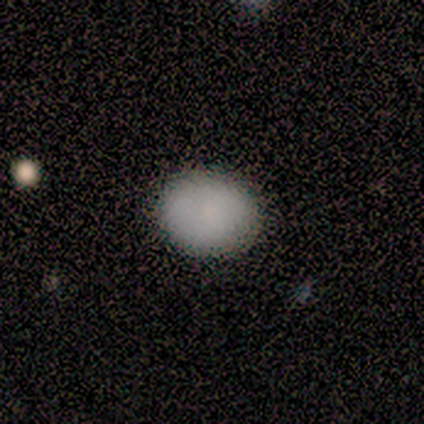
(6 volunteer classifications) Overall: smooth (100%). How rounded: in between (83%). Merging: none (83%).